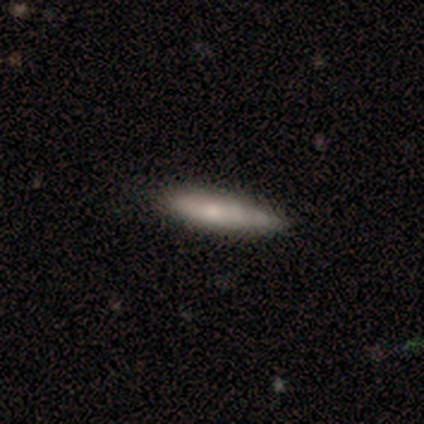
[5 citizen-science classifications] Smooth or featured? 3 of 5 (60%) said smooth. How rounded? 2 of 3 (67%) said cigar-shaped. Merging? 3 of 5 (60%) said minor disturbance.